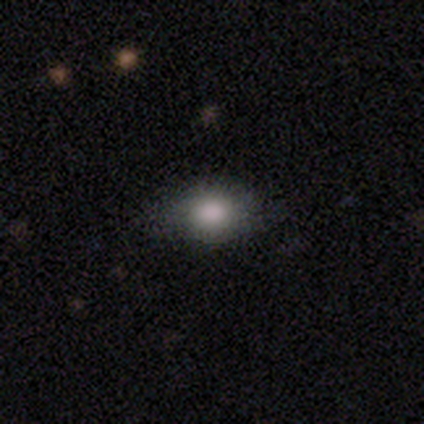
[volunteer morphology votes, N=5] smooth 60%, star or artifact 40%, featured or disk 0%. Down the decision tree: how rounded — in between (67%); merging — none (100%).